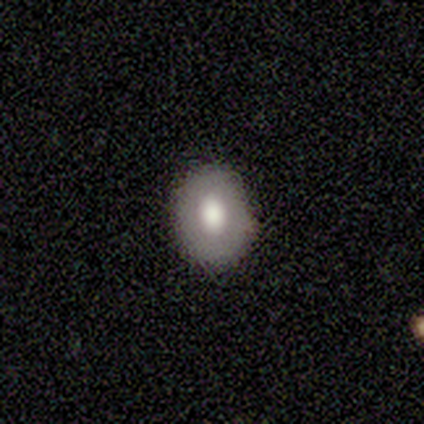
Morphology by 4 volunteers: Smooth or featured? featured or disk (75%)
Edge-on disk? no (100%)
Bar? weak (67%)
Spiral arms? no (100%)
Bulge size? large (67%)
Merging? none (100%)